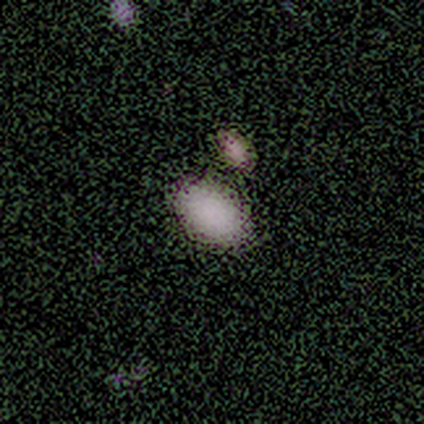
Smooth or featured: smooth — 100%
How rounded: in between — 80% (round — 20%)
Merging: none — 60% (merger — 40%)